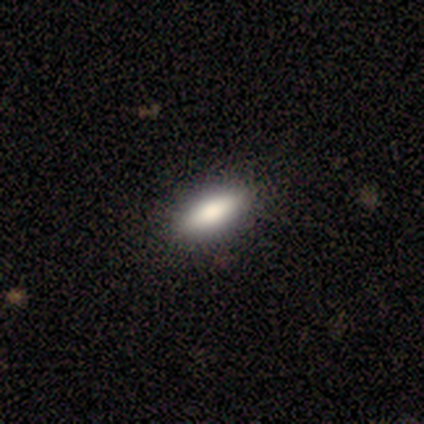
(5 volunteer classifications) smooth 80%, featured or disk 20%, star or artifact 0%. Down the decision tree: how rounded — in between (100%); merging — none (100%).